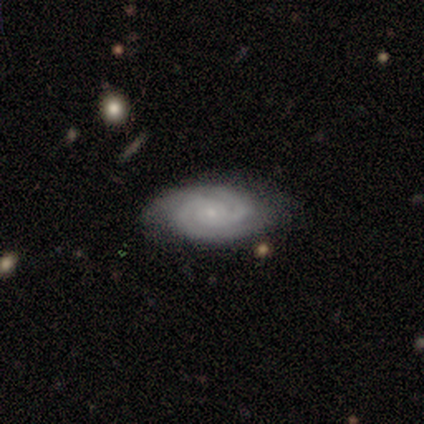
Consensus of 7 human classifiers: Q: Smooth or featured?
A: featured or disk (86%); runner-up: star or artifact (14%)
Q: Edge-on disk?
A: no (100%)
Q: Bar?
A: no (67%); runner-up: weak (33%)
Q: Spiral arms?
A: yes (100%)
Q: Spiral winding?
A: tight (100%)
Q: Spiral arm count?
A: 2 (83%); runner-up: can't tell (17%)
Q: Bulge size?
A: small (100%)
Q: Merging?
A: none (100%)